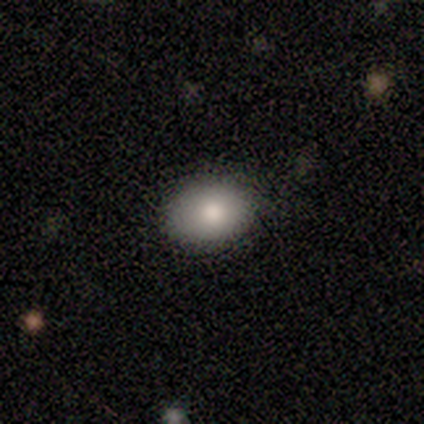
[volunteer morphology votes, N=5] This appears to be a smooth galaxy with no disk features (80%) that is round (50%, tied with in between). Merging: none (100%).